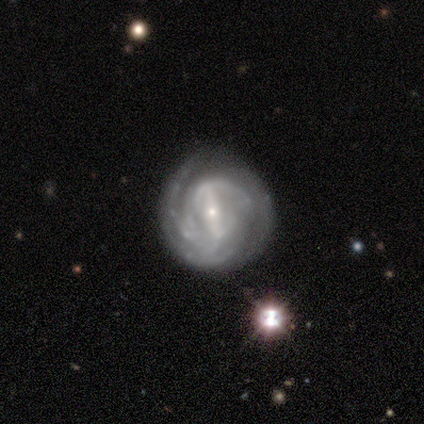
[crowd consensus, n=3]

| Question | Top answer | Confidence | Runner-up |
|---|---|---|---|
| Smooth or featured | featured or disk | 67% | smooth (33%) |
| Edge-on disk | no | 100% | — |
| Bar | strong | 50% | tied: weak (50%) |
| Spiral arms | yes | 100% | — |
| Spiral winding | tight | 50% | tied: loose (50%) |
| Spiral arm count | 2 | 50% | tied: can't tell (50%) |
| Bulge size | small | 100% | — |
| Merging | none | 67% | major disturbance (33%) |